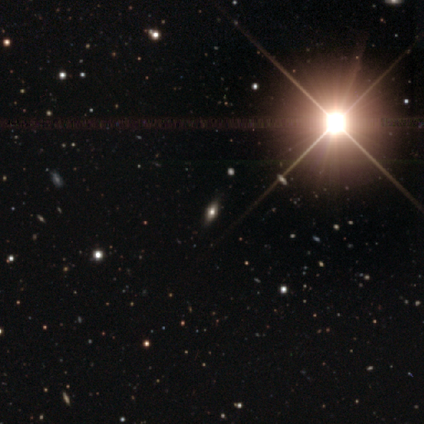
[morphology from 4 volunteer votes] type=star or artifact (75%).